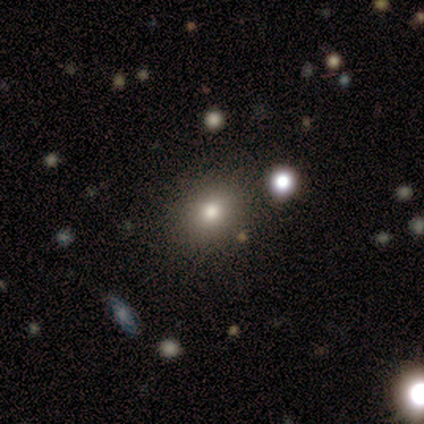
Smooth or featured?
  - smooth: 62% *
  - featured or disk: 25%
  - star or artifact: 12%
How rounded?
  - round: 80% *
  - in between: 20%
  - cigar-shaped: 0%
Merging?
  - none: 86% *
  - minor disturbance: 14%
  - major disturbance: 0%
  - merger: 0%